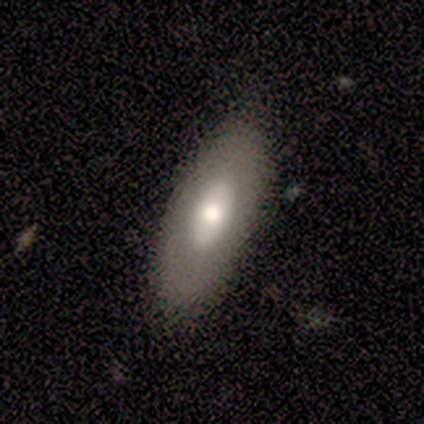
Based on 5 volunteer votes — Smooth or featured? smooth (80%)
How rounded? in between (75%)
Merging? none (50%, tied with minor disturbance)